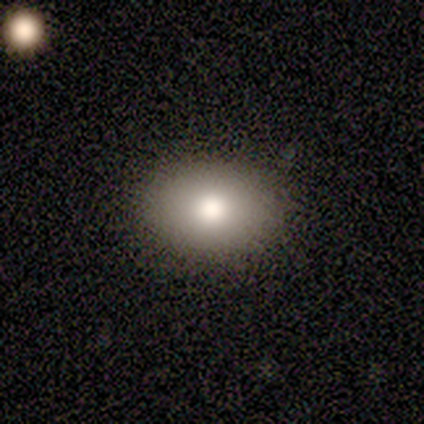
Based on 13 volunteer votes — smooth_or_featured: smooth (p=0.77) [alt: featured or disk p=0.15]
how_rounded: in between (p=0.80) [alt: round p=0.20]
merging: none (p=0.92) [alt: minor disturbance p=0.08]